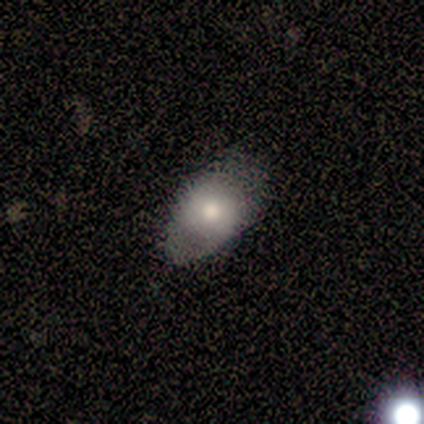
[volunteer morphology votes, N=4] This is likely a smooth galaxy (75%). How rounded: likely round (67%). Merging: possibly none (50%).